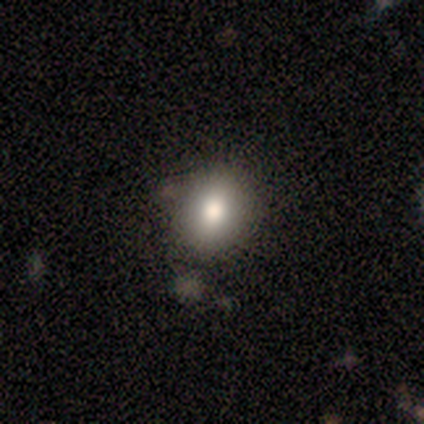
Smooth or featured? 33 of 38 (87%) said smooth. How rounded? 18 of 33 (55%) said round. Merging? 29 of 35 (83%) said none.